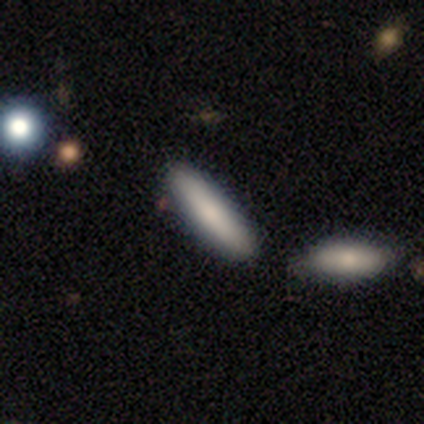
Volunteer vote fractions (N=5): smooth-or-featured: smooth: 100% | featured or disk: 0% | star or artifact: 0%
  how-rounded: in between: 60% | cigar-shaped: 40% | round: 0%
  merging: none: 80% | minor disturbance: 20% | major disturbance: 0% | merger: 0%